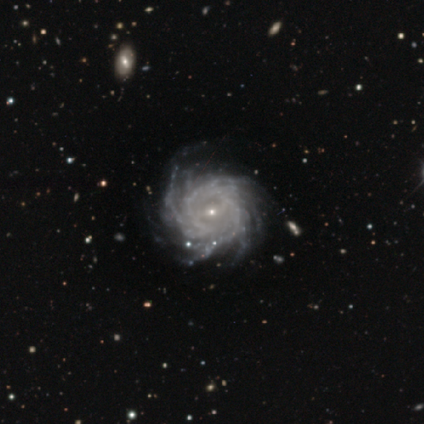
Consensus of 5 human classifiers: Smooth or featured? featured or disk (100%)
Edge-on disk? no (100%)
Bar? weak (60%)
Spiral arms? yes (100%)
Spiral winding? tight (80%)
Spiral arm count? more than 4 (60%)
Bulge size? small (100%)
Merging? none (80%)